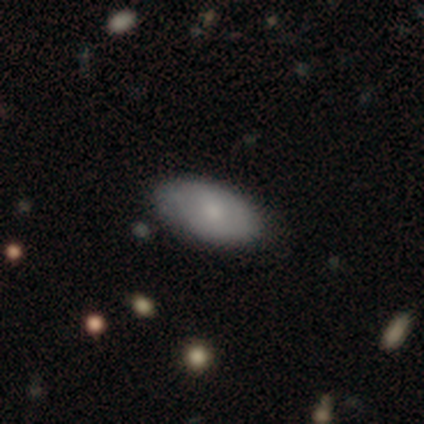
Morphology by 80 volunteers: Smooth or featured? smooth (76%)
How rounded? in between (93%)
Merging? none (41%)